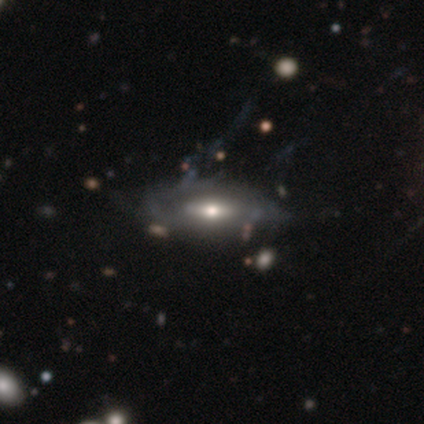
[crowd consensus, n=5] A smooth galaxy with no disk features (40%, tied with featured or disk) that is in between round and cigar-shaped (100%). Merging: none (50%).